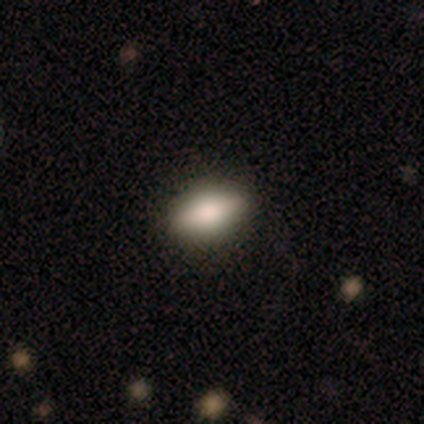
Morphology: type=smooth (100%); roundness=in between (60%); merging=none (100%).